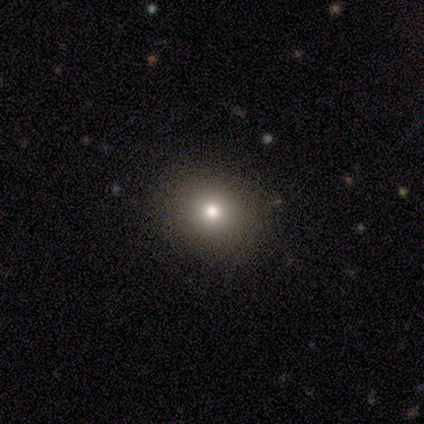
Smooth or featured: smooth — 80% (star or artifact — 20%)
How rounded: round — 75% (in between — 25%)
Merging: none — 100%